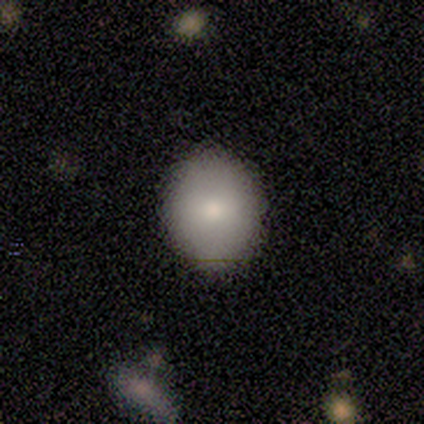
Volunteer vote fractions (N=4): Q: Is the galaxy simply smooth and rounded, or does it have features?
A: smooth — 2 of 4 (50%).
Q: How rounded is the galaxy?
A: round — 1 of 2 (50%, tied with in between).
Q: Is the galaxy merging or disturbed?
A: none — 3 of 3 (100%).